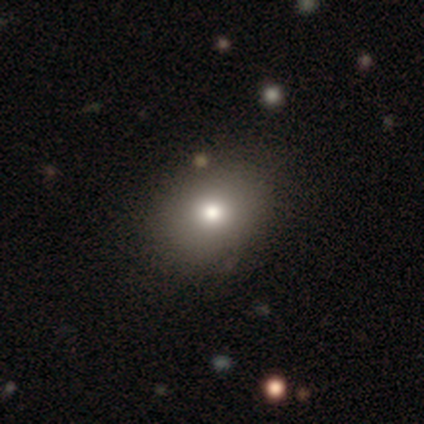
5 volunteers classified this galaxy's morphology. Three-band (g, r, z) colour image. It shows a smooth galaxy with no disk features (80%) that is in between round and cigar-shaped (75%). Merging: none (80%).